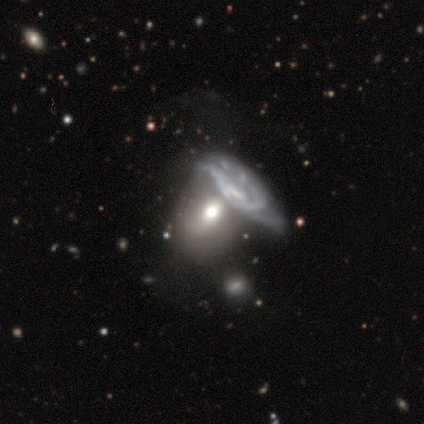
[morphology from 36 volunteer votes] Overall: featured or disk (53%; smooth 36%). Edge-on disk: no (95%). Bar: no (50%; weak 33%). Spiral arms: yes (50%, tied with no). Spiral arm count: can't tell (33%; 2 22%). Spiral winding: tight (78%). Bulge size: moderate (39%; large 22%). Merging: merger (62%).